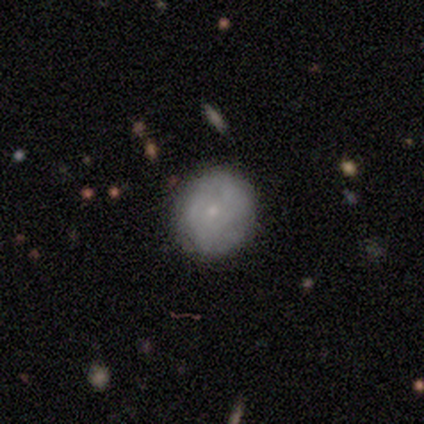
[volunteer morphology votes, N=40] Smooth or featured? 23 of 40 (57%) said smooth. How rounded? 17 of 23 (74%) said round. Merging? 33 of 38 (87%) said none.